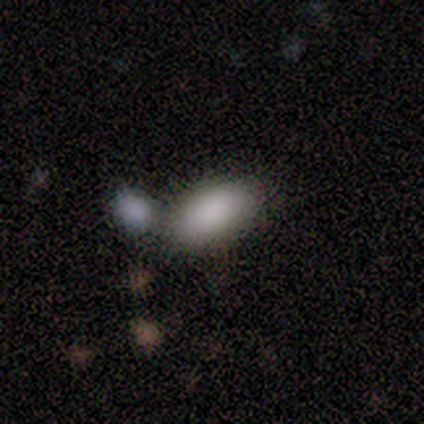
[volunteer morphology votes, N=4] Smooth or featured? 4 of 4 (100%) said smooth. How rounded? 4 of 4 (100%) said in between. Merging? 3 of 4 (75%) said none.